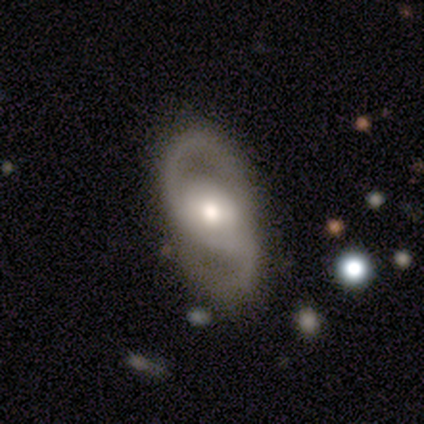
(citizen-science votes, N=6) Overall: featured or disk (100%). Edge-on disk: no (100%). Bar: weak (50%, tied with no). Spiral arms: yes (100%). Spiral arm count: 2 (100%). Spiral winding: medium (50%; loose 33%). Bulge size: moderate (67%). Merging: none (83%).